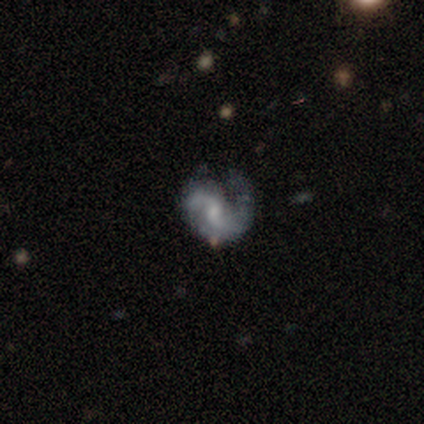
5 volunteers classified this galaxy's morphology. Smooth or featured? featured or disk (80%)
Edge-on disk? no (100%)
Bar? weak (50%, tied with no)
Spiral arms? yes (100%)
Spiral winding? medium (50%, tied with loose)
Spiral arm count? 2 (100%)
Bulge size? small (50%)
Merging? none (60%)